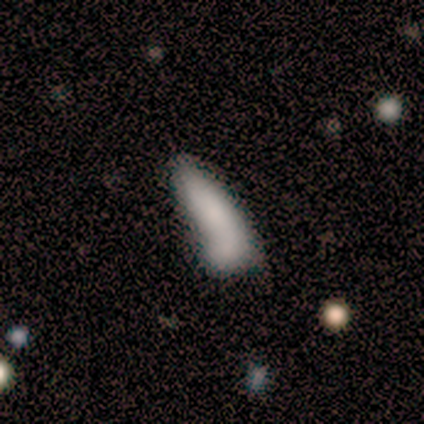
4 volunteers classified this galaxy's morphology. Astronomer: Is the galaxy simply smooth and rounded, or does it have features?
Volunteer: smooth — 50%, tied with featured or disk at 50%.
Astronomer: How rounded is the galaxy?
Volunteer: in between — 50%, tied with cigar-shaped at 50%.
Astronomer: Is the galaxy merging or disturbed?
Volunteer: merger — 50%.